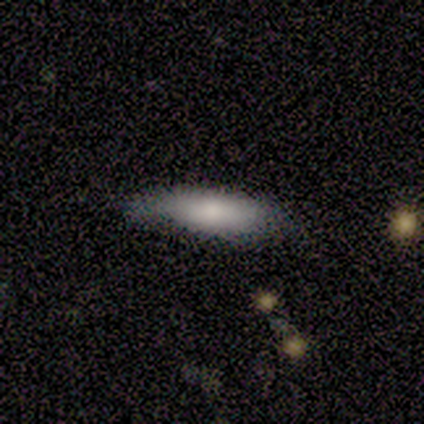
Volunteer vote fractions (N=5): Smooth or featured? 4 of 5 (80%) said smooth. How rounded? 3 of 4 (75%) said in between. Merging? 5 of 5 (100%) said none.